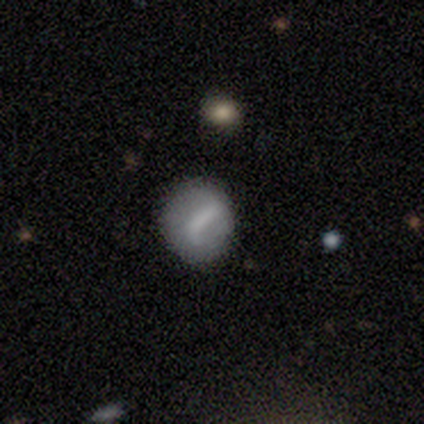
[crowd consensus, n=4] Q: Smooth or featured?
A: smooth (50%); runner-up: featured or disk (25%)
Q: How rounded?
A: round (50%); tied with: in between (50%)
Q: Merging?
A: minor disturbance (67%); runner-up: none (33%)